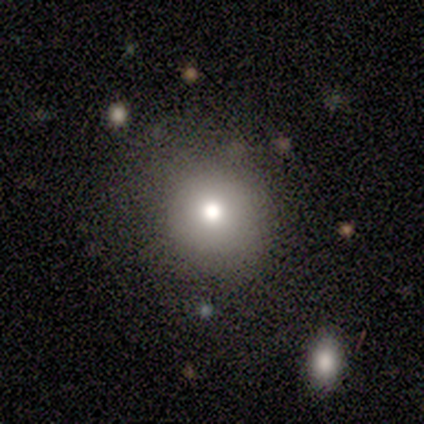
Volunteers were most divided on "how rounded": round: 75%, in between: 25%, cigar-shaped: 0%. More confident: merging — none (100%); smooth or featured — smooth (80%).